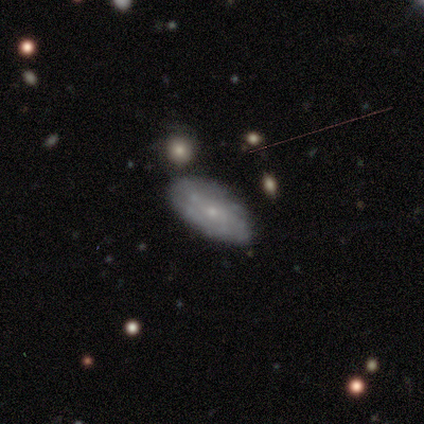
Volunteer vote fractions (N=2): Smooth or featured?
  - smooth: 50% * (tied)
  - featured or disk: 50% * (tied)
  - star or artifact: 0%
How rounded?
  - in between: 100% *
  - round: 0%
  - cigar-shaped: 0%
Merging?
  - none: 100% *
  - minor disturbance: 0%
  - major disturbance: 0%
  - merger: 0%